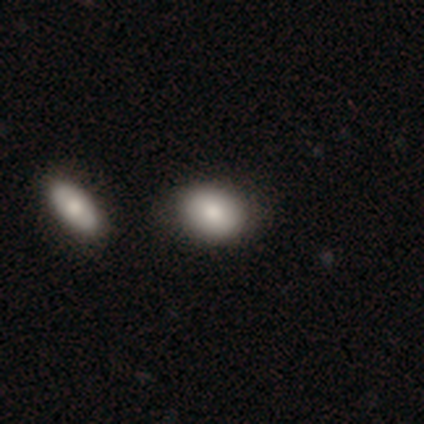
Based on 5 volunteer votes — Smooth or featured?
  - smooth: 80% *
  - featured or disk: 20%
  - star or artifact: 0%
How rounded?
  - round: 50% * (tied)
  - in between: 50% * (tied)
  - cigar-shaped: 0%
Merging?
  - none: 60% *
  - major disturbance: 20%
  - merger: 20%
  - minor disturbance: 0%